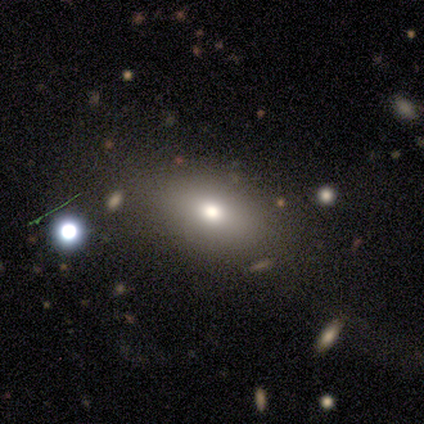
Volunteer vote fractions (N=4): Smooth or featured?
  - smooth: 75% *
  - star or artifact: 25%
  - featured or disk: 0%
How rounded?
  - round: 33% * (tied)
  - in between: 33% * (tied)
  - cigar-shaped: 33% * (tied)
Merging?
  - none: 100% *
  - minor disturbance: 0%
  - major disturbance: 0%
  - merger: 0%